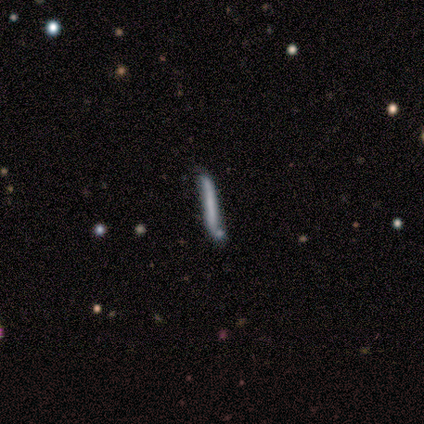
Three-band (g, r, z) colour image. It shows a smooth galaxy with no disk features (60%) that is cigar-shaped (100%). Merging: none (100%).